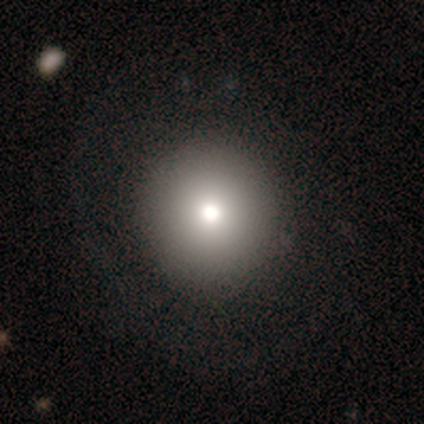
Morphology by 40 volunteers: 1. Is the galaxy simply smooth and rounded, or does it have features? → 75% smooth, 15% featured or disk, 10% star or artifact.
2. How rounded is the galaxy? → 93% round, 3% in between, 3% cigar-shaped.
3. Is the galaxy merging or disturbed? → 61% none, 3% major disturbance, 0% minor disturbance, 0% merger.